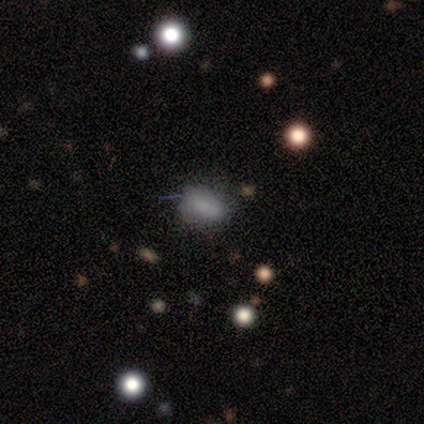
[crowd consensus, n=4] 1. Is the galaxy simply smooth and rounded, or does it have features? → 75% smooth, 25% featured or disk, 0% star or artifact.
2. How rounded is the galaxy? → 67% in between, 33% round, 0% cigar-shaped.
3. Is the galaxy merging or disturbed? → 75% none, 25% minor disturbance, 0% major disturbance, 0% merger.